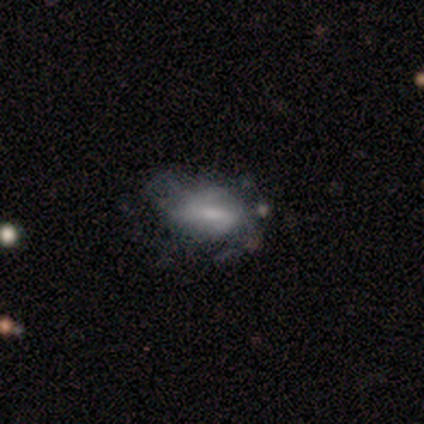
Smooth or featured: smooth — 60% (featured or disk — 40%)
How rounded: in between — 67% (cigar-shaped — 33%)
Merging: none — 80% (minor disturbance — 20%)